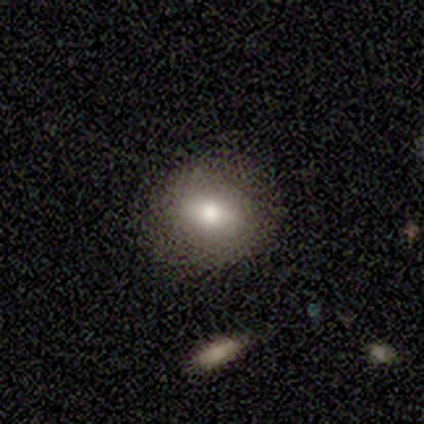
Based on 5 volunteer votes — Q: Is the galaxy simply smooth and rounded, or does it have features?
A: smooth — 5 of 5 (100%).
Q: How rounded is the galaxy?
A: round — 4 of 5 (80%).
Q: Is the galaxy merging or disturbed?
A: none — 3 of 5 (60%).